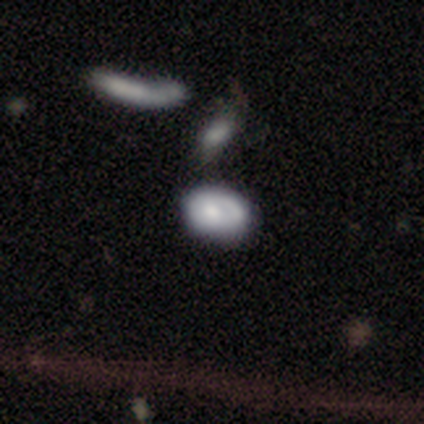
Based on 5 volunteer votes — Smooth or featured? smooth (60%)
How rounded? in between (100%)
Merging? merger (60%)